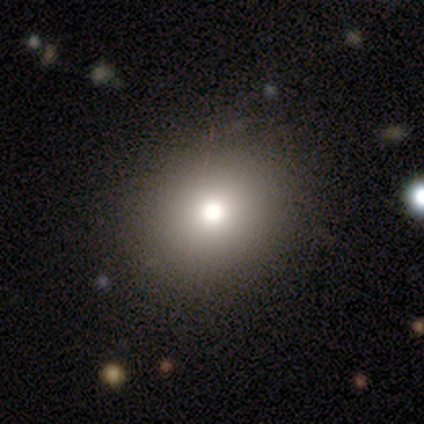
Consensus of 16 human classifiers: Smooth or featured? 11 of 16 (69%) said smooth. How rounded? 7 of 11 (64%) said round. Merging? 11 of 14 (79%) said none.